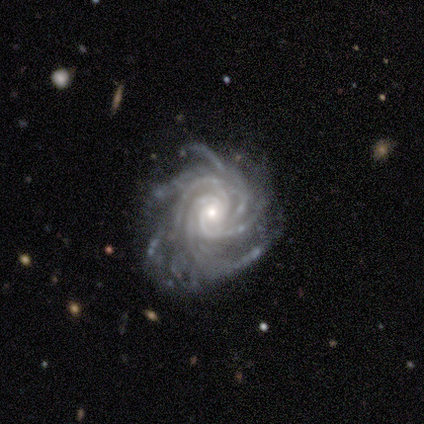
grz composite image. It shows a featured or disk galaxy (100%) with no bar (100%), more than 4 (50%) tight (50%, tied with medium) spiral arms (100%) and a small central bulge (75%). Merging: none (75%).